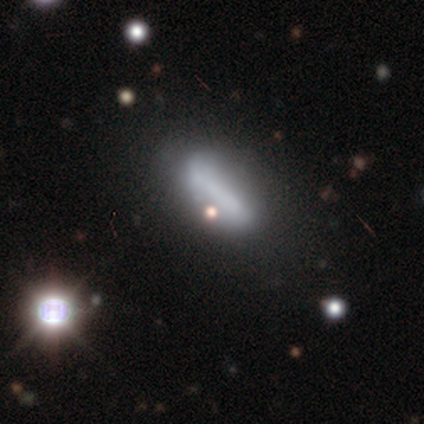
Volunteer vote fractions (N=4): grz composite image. It shows a smooth galaxy with no disk features (50%, tied with star or artifact) that is in between round and cigar-shaped (100%). Merging: none (100%).